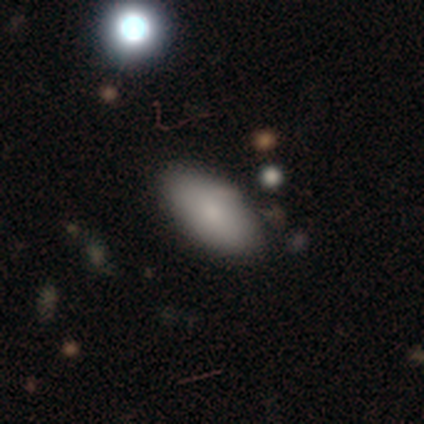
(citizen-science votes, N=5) Morphology: type=smooth (100%); roundness=in between (100%); merging=none (60%).